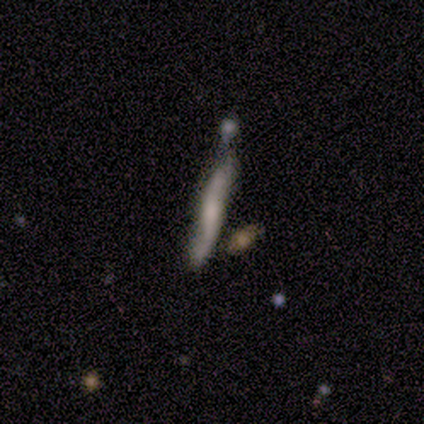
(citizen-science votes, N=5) A featured or disk galaxy (60%) viewed edge-on (100%) with a rounded central bulge (67%).

Vote fractions:
- Smooth or featured? featured or disk: 60% / smooth: 20% / star or artifact: 20%
- Edge-on disk? yes: 100% / no: 0%
- Edge-on bulge? rounded: 67% / none: 33% / boxy: 0%
- Merging? none: 50% / minor disturbance: 25% / major disturbance: 25% / merger: 0%